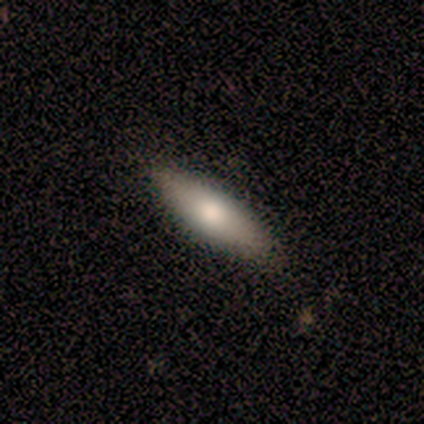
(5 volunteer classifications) Q: Smooth or featured?
A: smooth (60%); runner-up: featured or disk (40%)
Q: How rounded?
A: cigar-shaped (67%); runner-up: round (33%)
Q: Merging?
A: none (80%); runner-up: major disturbance (20%)